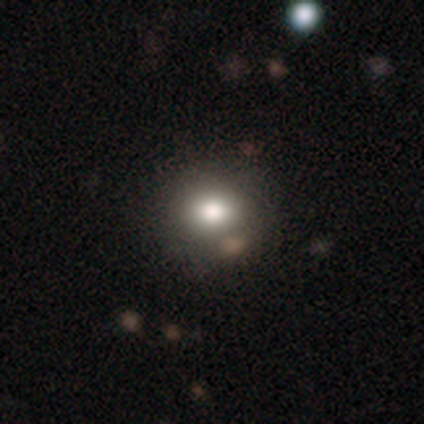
This is likely a smooth galaxy (60%). How rounded: likely in between (67%). Merging: clearly none (100%).